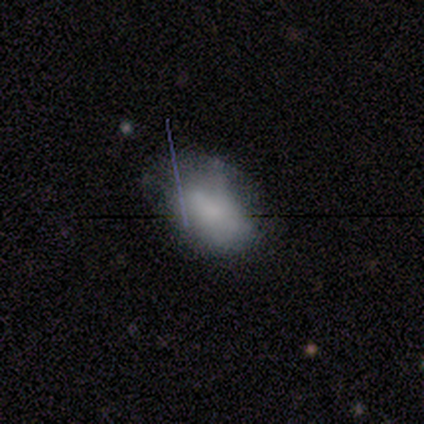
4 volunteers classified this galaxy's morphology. This is likely a smooth galaxy (75%). How rounded: clearly in between (100%). Merging: possibly none (50%, tied with minor disturbance).